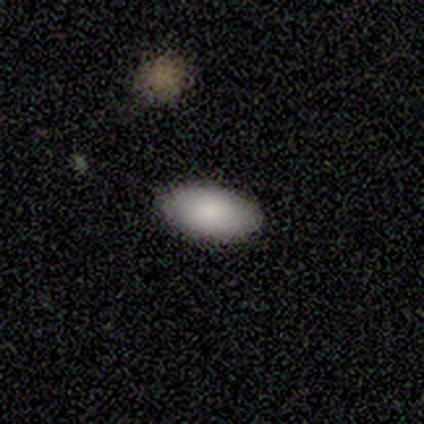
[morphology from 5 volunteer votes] type=smooth (80%); roundness=in between (100%); merging=none (80%).